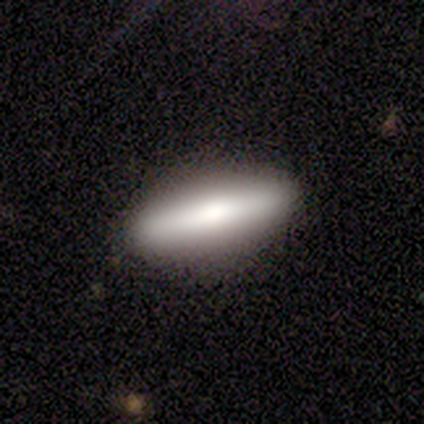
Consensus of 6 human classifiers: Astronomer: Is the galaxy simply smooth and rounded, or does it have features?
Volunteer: smooth — 67%.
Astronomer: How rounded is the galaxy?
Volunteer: cigar-shaped — 75%.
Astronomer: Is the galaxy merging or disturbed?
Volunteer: none — 100%.